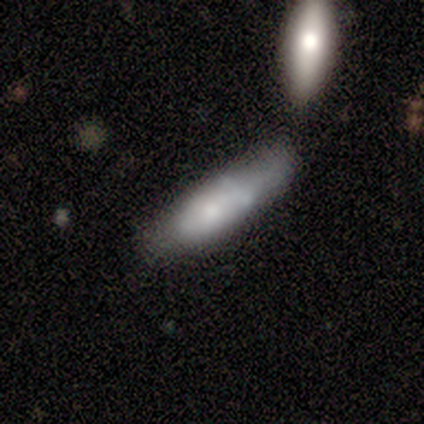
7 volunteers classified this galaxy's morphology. type=featured or disk (57%); edge-on=no (75%); bar=no (100%); spiral arms=no (100%); bulge=small (67%); merging=minor disturbance (33%, tied with merger).